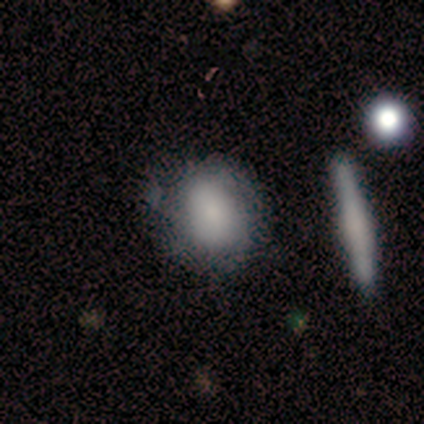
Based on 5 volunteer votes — Smooth or featured: smooth — 80% (star or artifact — 20%)
How rounded: round — 50% (tied with in between — 50%)
Merging: none — 75% (minor disturbance — 25%)